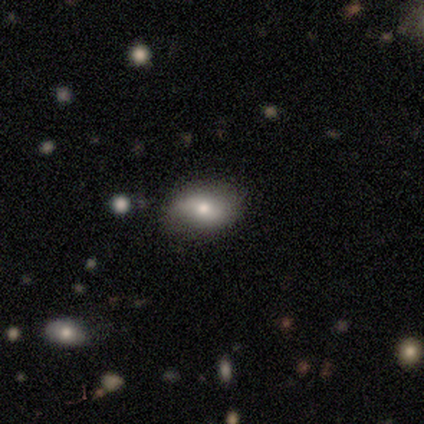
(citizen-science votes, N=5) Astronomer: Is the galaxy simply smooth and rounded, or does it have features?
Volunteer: smooth — 40%, tied with featured or disk at 40%.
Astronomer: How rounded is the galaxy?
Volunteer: in between — 100%.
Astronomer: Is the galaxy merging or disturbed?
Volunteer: none — 75%.